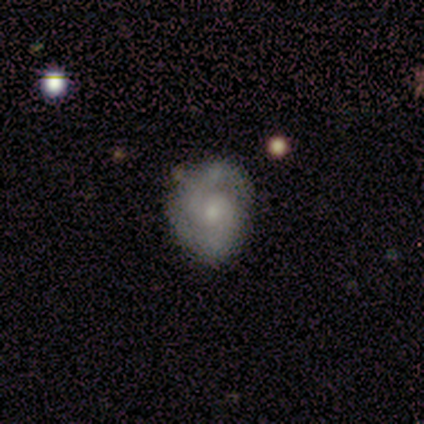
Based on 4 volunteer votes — A featured or disk galaxy (100%) with a weak bar (50%), 2 (75%) tight (75%) spiral arms (100%) and a moderate central bulge (50%, tied with small).

Vote fractions:
- Smooth or featured? featured or disk: 100% / smooth: 0% / star or artifact: 0%
- Edge-on disk? no: 100% / yes: 0%
- Bar? weak: 50% / strong: 25% / no: 25%
- Spiral arms? yes: 100% / no: 0%
- Spiral winding? tight: 75% / loose: 25% / medium: 0%
- Spiral arm count? 2: 75% / can't tell: 25% / 1: 0% / 3: 0% / 4: 0% / more than 4: 0%
- Bulge size? moderate: 50% (tied) / small: 50% (tied) / dominant: 0% / large: 0% / none: 0%
- Merging? none: 75% / major disturbance: 25% / minor disturbance: 0% / merger: 0%